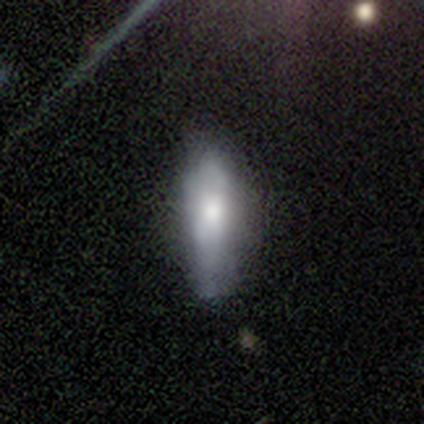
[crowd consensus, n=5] Overall: smooth (80%). How rounded: cigar-shaped (100%). Merging: none (100%).